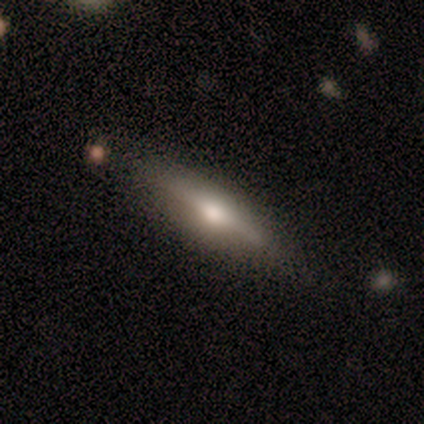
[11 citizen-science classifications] A smooth galaxy with no disk features (45%, tied with featured or disk) that is cigar-shaped (100%). Merging: none (70%).